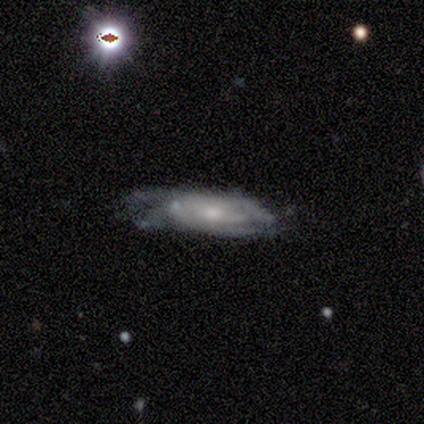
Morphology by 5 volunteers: smooth_or_featured: featured or disk (p=0.80) [alt: star or artifact p=0.20]
disk_edge_on: no (p=1.00)
bar: no (p=0.75) [alt: weak p=0.25]
has_spiral_arms: yes (p=0.75) [alt: no p=0.25]
spiral_winding: tight (p=0.67) [alt: medium p=0.33]
spiral_arm_count: can't tell (p=1.00)
bulge_size: small (p=0.50) [alt: moderate p=0.25]
merging: major disturbance (p=0.75) [alt: minor disturbance p=0.25]